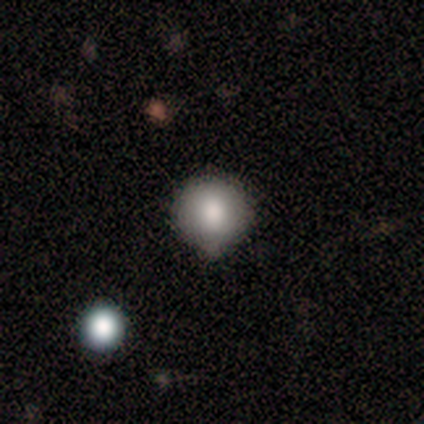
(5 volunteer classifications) Overall: smooth (60%; star or artifact 40%). How rounded: round (100%). Merging: minor disturbance (67%; none 33%).